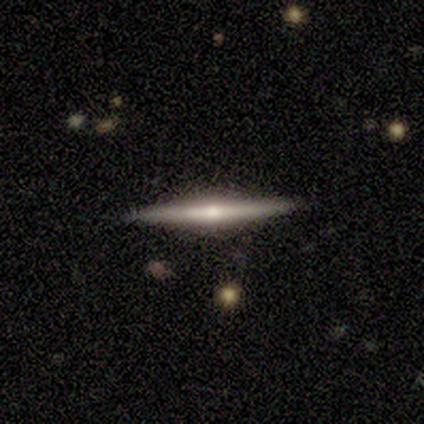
featured or disk 83%, smooth 17%, star or artifact 0%. Down the decision tree: edge-on disk — yes (100%); edge-on bulge — rounded (80%); merging — none (92%).